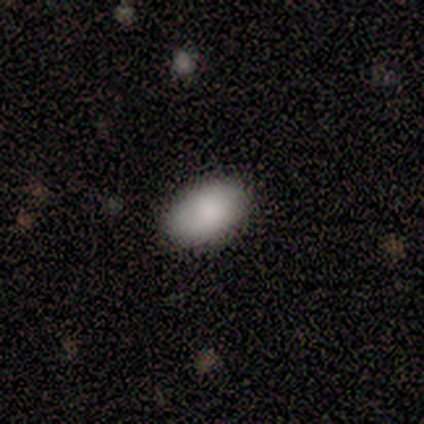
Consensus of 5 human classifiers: Morphology: type=smooth (80%); roundness=in between (100%); merging=none (100%).